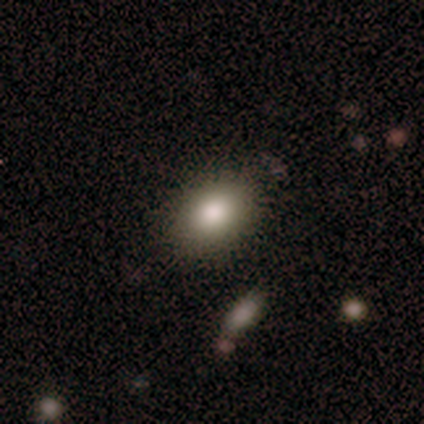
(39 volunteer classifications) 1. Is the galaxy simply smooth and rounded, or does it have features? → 74% smooth, 18% featured or disk, 8% star or artifact.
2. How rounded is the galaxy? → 86% in between, 14% round, 0% cigar-shaped.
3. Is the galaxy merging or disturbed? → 81% none, 14% minor disturbance, 3% major disturbance, 3% merger.